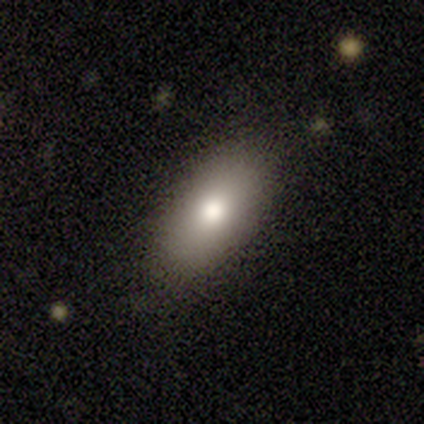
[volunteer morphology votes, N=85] Q: Smooth or featured?
A: smooth (76%); runner-up: featured or disk (19%)
Q: How rounded?
A: in between (86%); runner-up: cigar-shaped (9%)
Q: Merging?
A: none (77%); runner-up: minor disturbance (20%)